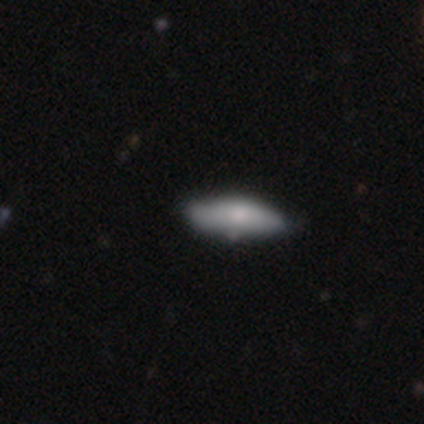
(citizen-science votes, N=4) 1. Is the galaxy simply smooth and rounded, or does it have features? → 75% smooth, 25% featured or disk, 0% star or artifact.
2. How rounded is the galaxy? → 67% in between, 33% cigar-shaped, 0% round.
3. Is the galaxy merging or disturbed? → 75% none, 25% minor disturbance, 0% major disturbance, 0% merger.